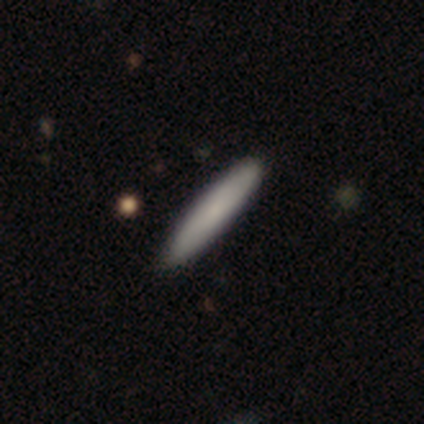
Smooth or featured? 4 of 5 (80%) said smooth. How rounded? 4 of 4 (100%) said cigar-shaped. Merging? 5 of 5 (100%) said none.